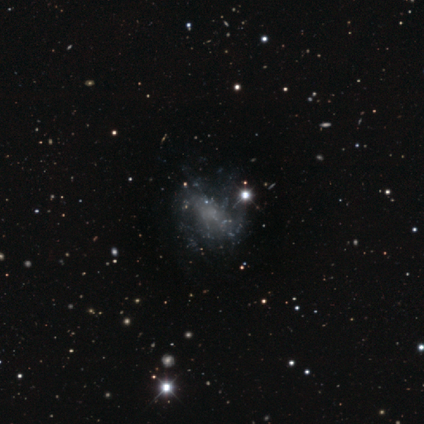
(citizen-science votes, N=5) smooth-or-featured: featured or disk: 40% (tied) | star or artifact: 40% (tied) | smooth: 20%
  disk-edge-on: no: 100% | yes: 0%
    bar: no: 100% | strong: 0% | weak: 0%
    has-spiral-arms: no: 100% | yes: 0%
    bulge-size: none: 100% | dominant: 0% | large: 0% | moderate: 0% | small: 0%
  merging: none: 67% | minor disturbance: 33% | major disturbance: 0% | merger: 0%